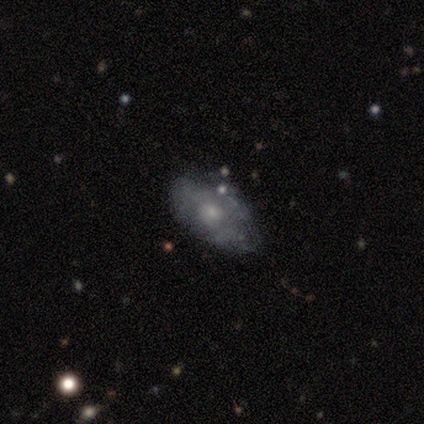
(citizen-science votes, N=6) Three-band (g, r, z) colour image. It shows a smooth galaxy with no disk features (83%) that is in between round and cigar-shaped (80%). Merging: major disturbance (60%).